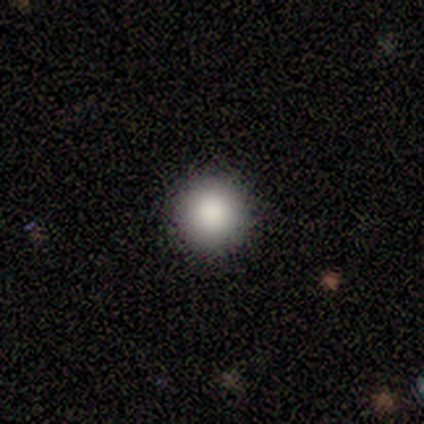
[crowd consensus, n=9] Smooth or featured: smooth — 89% (star or artifact — 11%)
How rounded: round — 100%
Merging: none — 88% (minor disturbance — 12%)